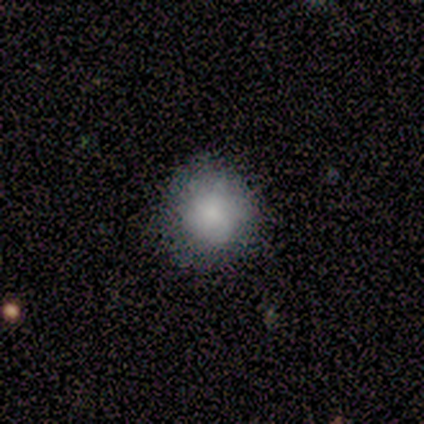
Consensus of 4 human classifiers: This is clearly a smooth galaxy (100%). How rounded: possibly round (50%, tied with in between). Merging: possibly major disturbance (50%).